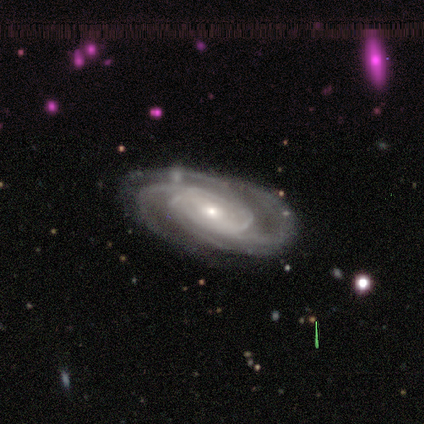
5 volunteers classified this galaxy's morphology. Volunteers were most divided on "bar": no: 60%, weak: 40%, strong: 0%. More confident: smooth or featured — featured or disk (100%); edge-on disk — no (100%); spiral arms — yes (100%); bulge size — small (100%); merging — none (100%); spiral winding — tight (80%); spiral arm count — 2 (60%).